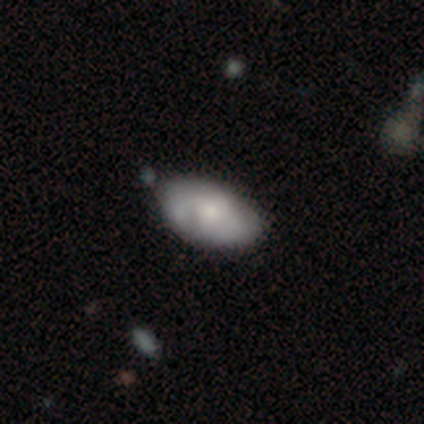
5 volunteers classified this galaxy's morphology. This appears to be a smooth galaxy with no disk features (60%) that is in between round and cigar-shaped (100%). Merging: none (80%).